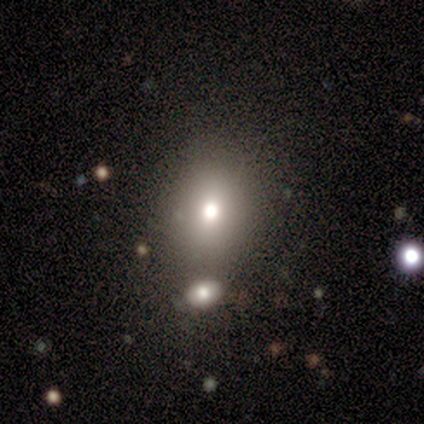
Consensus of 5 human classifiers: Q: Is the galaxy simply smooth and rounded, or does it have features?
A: smooth — 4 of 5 (80%).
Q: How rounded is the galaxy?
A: round — 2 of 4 (50%, tied with in between).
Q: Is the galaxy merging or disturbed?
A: none — 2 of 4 (50%, tied with minor disturbance).